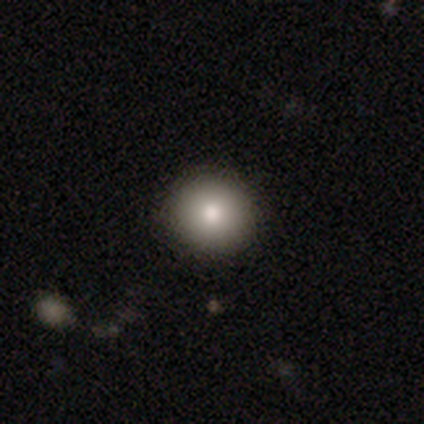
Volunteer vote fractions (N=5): A smooth galaxy with no disk features (100%) that is round (100%). Merging: none (80%).